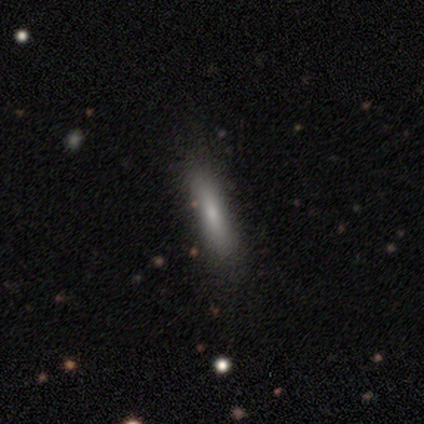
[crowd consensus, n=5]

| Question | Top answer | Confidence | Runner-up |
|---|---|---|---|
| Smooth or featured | smooth | 80% | featured or disk (20%) |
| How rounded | cigar-shaped | 75% | in between (25%) |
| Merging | none | 100% | — |